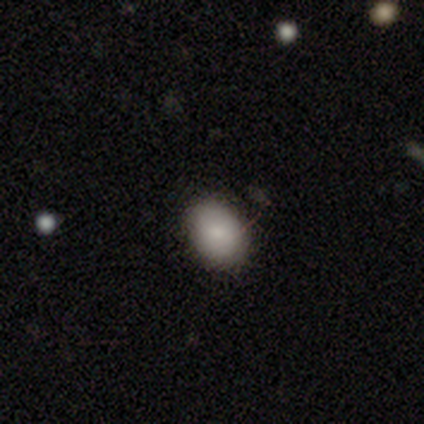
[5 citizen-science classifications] Q: Smooth or featured?
A: smooth (100%)
Q: How rounded?
A: in between (100%)
Q: Merging?
A: none (60%); runner-up: minor disturbance (40%)